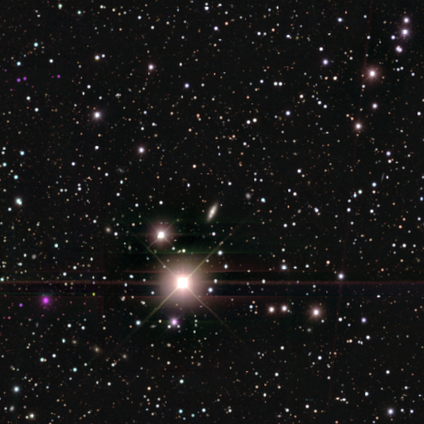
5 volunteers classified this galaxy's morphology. smooth-or-featured: star or artifact: 100% | smooth: 0% | featured or disk: 0%